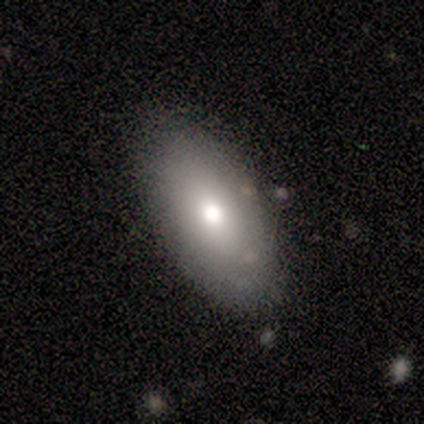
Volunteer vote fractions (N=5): A smooth galaxy with no disk features (100%) that is in between round and cigar-shaped (100%).

Vote fractions:
- Smooth or featured? smooth: 100% / featured or disk: 0% / star or artifact: 0%
- How rounded? in between: 100% / round: 0% / cigar-shaped: 0%
- Merging? none: 80% / minor disturbance: 20% / major disturbance: 0% / merger: 0%